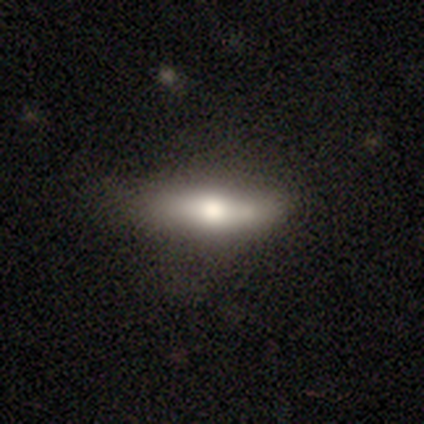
Morphology: type=smooth (67%); roundness=cigar-shaped (64%); merging=none (75%).